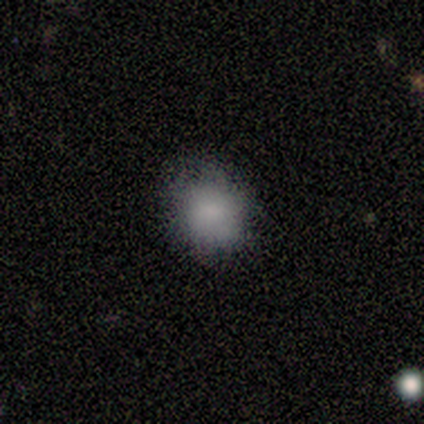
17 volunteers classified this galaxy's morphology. Volunteers were most divided on "merging": none: 71%, minor disturbance: 24%, major disturbance: 6%, merger: 0%. More confident: smooth or featured — smooth (88%); how rounded — round (80%).